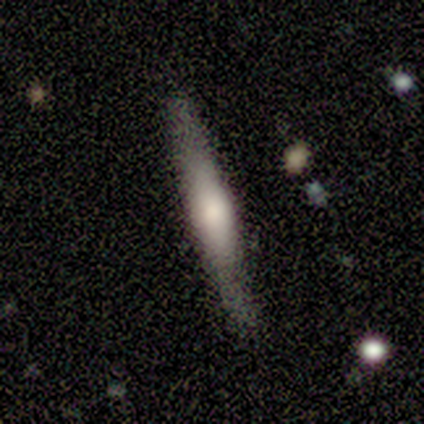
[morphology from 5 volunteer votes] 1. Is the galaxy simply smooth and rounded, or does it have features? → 60% featured or disk, 40% smooth, 0% star or artifact.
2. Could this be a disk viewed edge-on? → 100% yes, 0% no.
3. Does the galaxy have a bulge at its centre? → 100% rounded, 0% boxy, 0% none.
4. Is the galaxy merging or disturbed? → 80% none, 20% minor disturbance, 0% major disturbance, 0% merger.